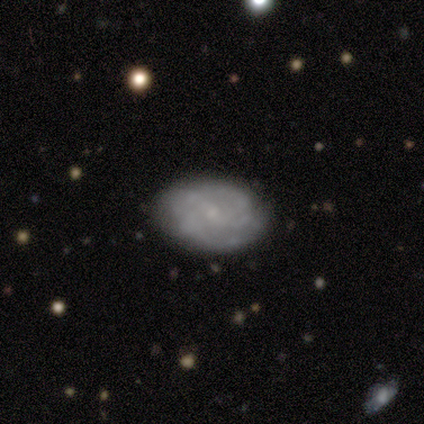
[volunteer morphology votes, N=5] Smooth or featured? 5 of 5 (100%) said featured or disk. Edge-on disk? 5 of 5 (100%) said no. Bar? 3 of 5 (60%) said strong. Spiral arms? 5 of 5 (100%) said yes. Spiral winding? 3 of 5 (60%) said tight. Spiral arm count? 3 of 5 (60%) said can't tell. Bulge size? 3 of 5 (60%) said small. Merging? 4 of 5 (80%) said none.